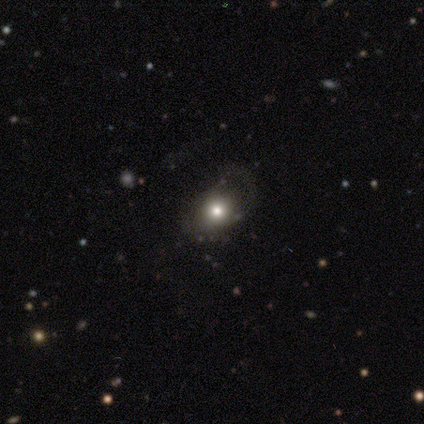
A smooth galaxy with no disk features (80%) that is round (50%, tied with in between). Merging: none (75%).